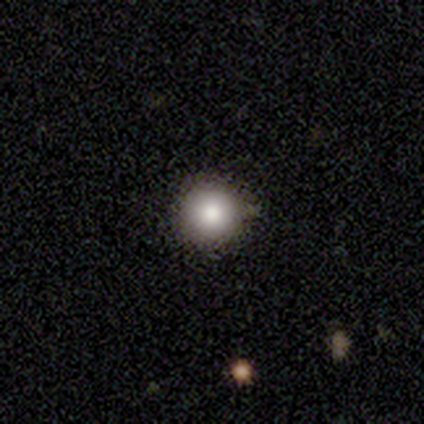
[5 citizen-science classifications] This appears to be a smooth galaxy with no disk features (100%) that is round (100%). Merging: none (80%).